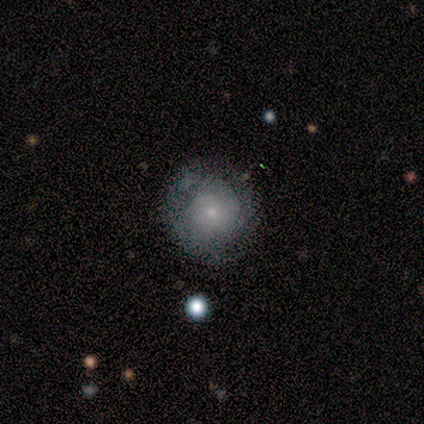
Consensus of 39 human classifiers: This is possibly a smooth galaxy (49%). How rounded: clearly round (100%). Merging: likely none (69%).